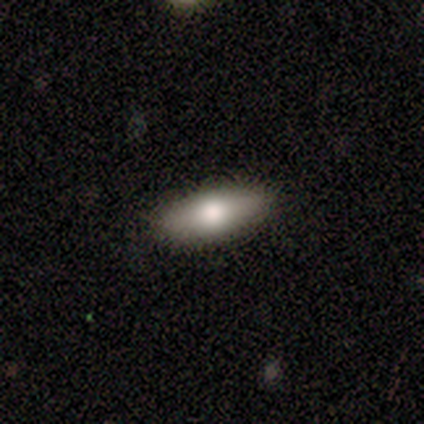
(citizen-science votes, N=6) Smooth or featured? 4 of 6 (67%) said smooth. How rounded? 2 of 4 (50%, tied with cigar-shaped) said in between. Merging? 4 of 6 (67%) said none.